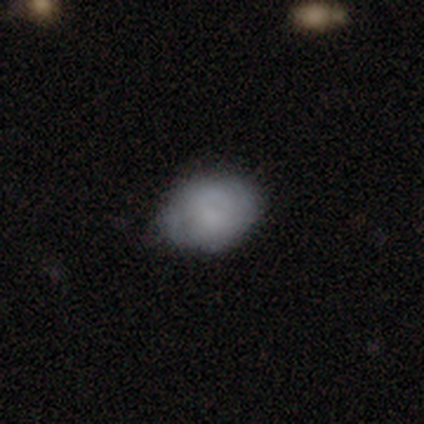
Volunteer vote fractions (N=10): Smooth or featured: smooth — 80% (featured or disk — 20%)
How rounded: in between — 75% (round — 25%)
Merging: none — 70% (minor disturbance — 30%)